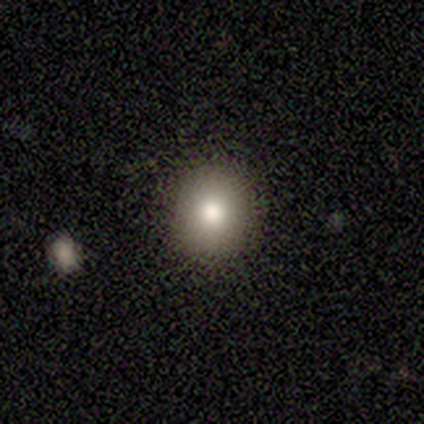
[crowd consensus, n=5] Smooth or featured? smooth (100%)
How rounded? round (60%)
Merging? none (100%)